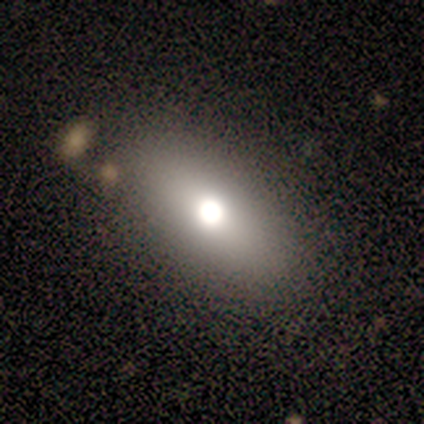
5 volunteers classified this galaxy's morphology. Q: Smooth or featured?
A: smooth (60%); runner-up: star or artifact (40%)
Q: How rounded?
A: in between (67%); runner-up: round (33%)
Q: Merging?
A: none (67%); runner-up: minor disturbance (33%)